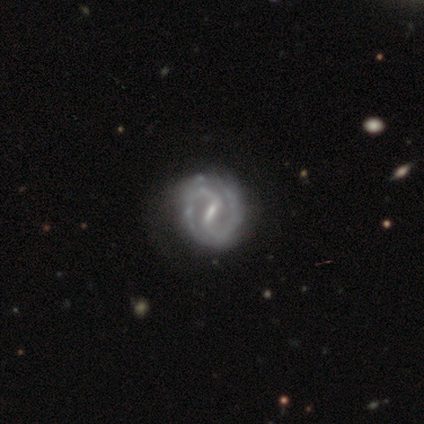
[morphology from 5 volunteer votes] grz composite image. It shows a featured or disk galaxy (80%) with a strong bar (75%), 2 (100%) medium (75%) spiral arms (100%) and a small central bulge (75%). Merging: none (80%).